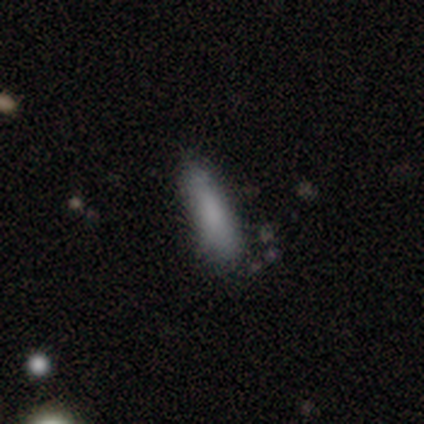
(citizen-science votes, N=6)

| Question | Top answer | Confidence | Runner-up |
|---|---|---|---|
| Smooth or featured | smooth | 83% | star or artifact (17%) |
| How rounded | cigar-shaped | 100% | — |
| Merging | none | 60% | minor disturbance (40%) |